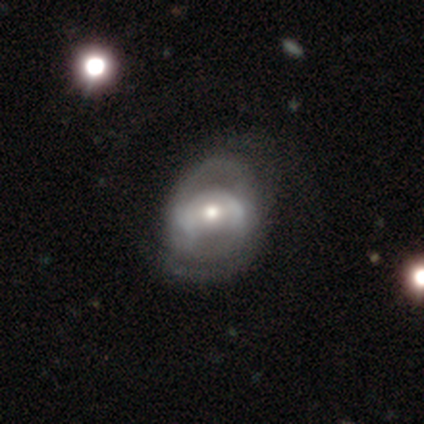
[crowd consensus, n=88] smooth-or-featured: featured or disk: 73% | smooth: 20% | star or artifact: 7%
  disk-edge-on: no: 97% | yes: 3%
    bar: no: 60% | weak: 34% | strong: 6%
    has-spiral-arms: yes: 69% | no: 31%
      spiral-winding: medium: 47% | tight: 42% | loose: 12%
      spiral-arm-count: 2: 58% | can't tell: 26% | 1: 9% | 3: 7% | 4: 0% | more than 4: 0%
    bulge-size: moderate: 63% | small: 35% | large: 2% | dominant: 0% | none: 0%
  merging: none: 48% | major disturbance: 29% | minor disturbance: 23% | merger: 0%